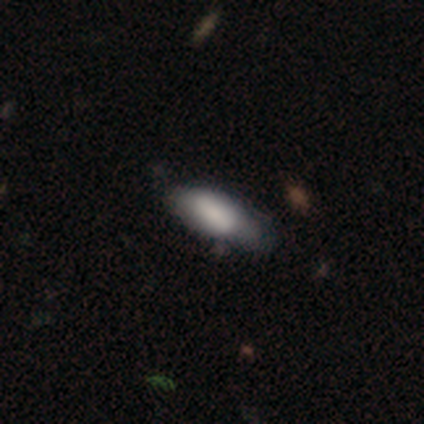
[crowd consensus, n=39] smooth-or-featured: smooth: 85% | featured or disk: 13% | star or artifact: 3%
  how-rounded: in between: 73% | cigar-shaped: 27% | round: 0%
  merging: none: 50% | minor disturbance: 34% | major disturbance: 16% | merger: 0%